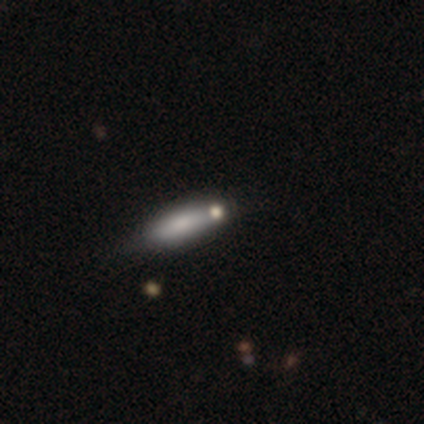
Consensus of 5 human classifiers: A smooth galaxy with no disk features (100%) that is cigar-shaped (80%).

Vote fractions:
- Smooth or featured? smooth: 100% / featured or disk: 0% / star or artifact: 0%
- How rounded? cigar-shaped: 80% / in between: 20% / round: 0%
- Merging? none: 60% / minor disturbance: 40% / major disturbance: 0% / merger: 0%